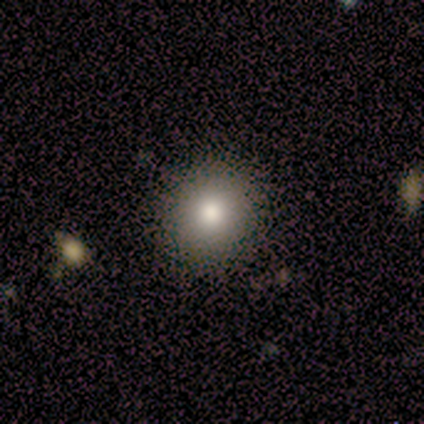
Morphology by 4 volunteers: This appears to be a smooth galaxy with no disk features (75%) that is round (67%). Merging: none (100%).